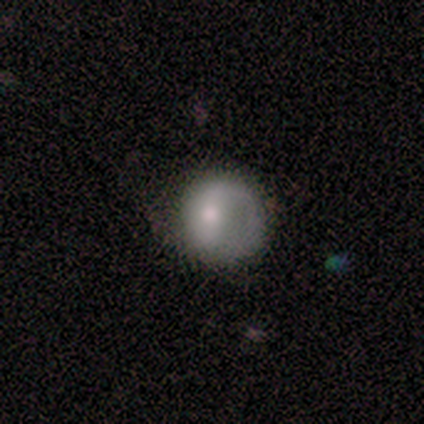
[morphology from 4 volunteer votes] Q: Smooth or featured?
A: featured or disk (75%); runner-up: smooth (25%)
Q: Edge-on disk?
A: no (100%)
Q: Bar?
A: no (100%)
Q: Spiral arms?
A: no (67%); runner-up: yes (33%)
Q: Bulge size?
A: moderate (33%); tied with: small (33%); none (33%)
Q: Merging?
A: minor disturbance (50%); runner-up: none (25%)